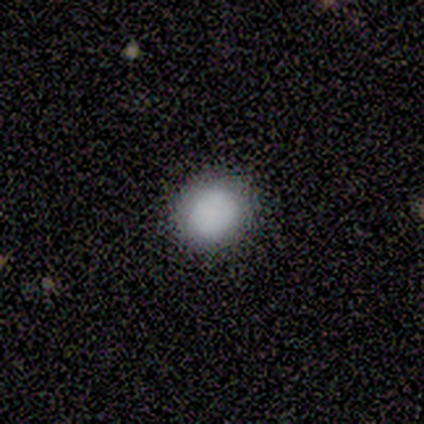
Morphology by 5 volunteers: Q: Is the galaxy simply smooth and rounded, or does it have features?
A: smooth — 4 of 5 (80%).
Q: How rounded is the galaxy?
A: round — 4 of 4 (100%).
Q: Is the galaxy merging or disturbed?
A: none — 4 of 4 (100%).